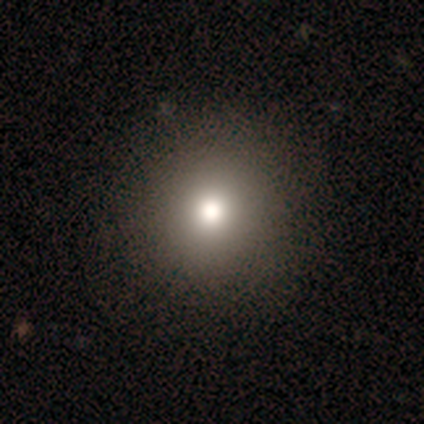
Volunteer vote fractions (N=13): Morphology: type=smooth (77%); roundness=round (80%); merging=none (92%).